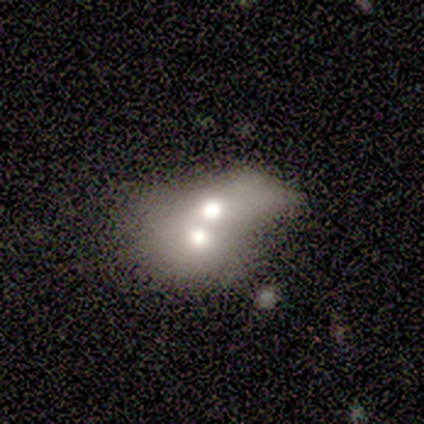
Morphology: type=featured or disk (60%); edge-on=no (67%); bar=weak (50%, tied with no); spiral arms=no (100%); bulge=moderate (100%); merging=merger (75%).